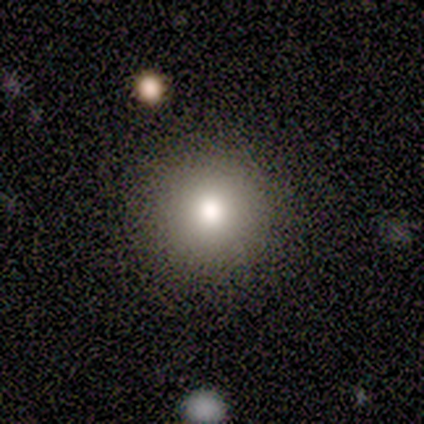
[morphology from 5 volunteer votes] Q: Smooth or featured?
A: smooth (80%); runner-up: star or artifact (20%)
Q: How rounded?
A: round (100%)
Q: Merging?
A: none (100%)